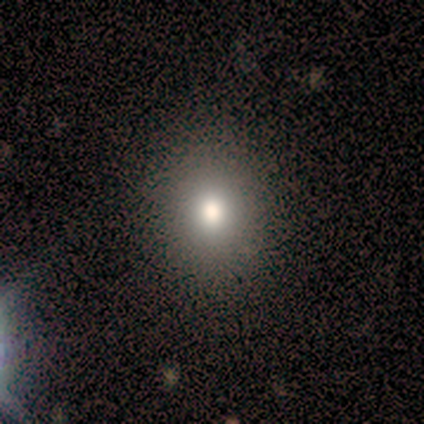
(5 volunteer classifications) smooth_or_featured: smooth (p=1.00)
how_rounded: round (p=0.80) [alt: in between p=0.20]
merging: none (p=1.00)